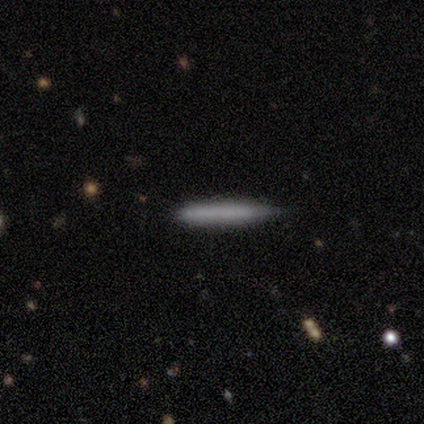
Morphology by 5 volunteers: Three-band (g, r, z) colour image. It shows a smooth galaxy with no disk features (60%) that is cigar-shaped (100%). Merging: none (60%).